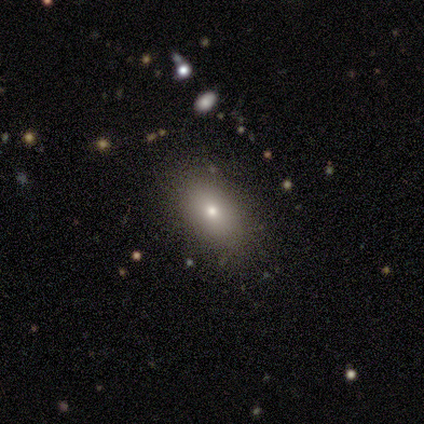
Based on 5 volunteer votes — Volunteers were most divided on "smooth or featured": smooth: 80%, star or artifact: 20%, featured or disk: 0%. More confident: how rounded — in between (100%); merging — none (100%).